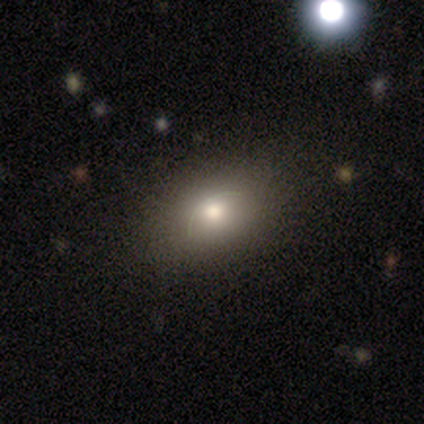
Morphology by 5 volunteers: Volunteers were most divided on "how rounded": in between: 60%, round: 20%, cigar-shaped: 20%. More confident: smooth or featured — smooth (100%); merging — none (80%).